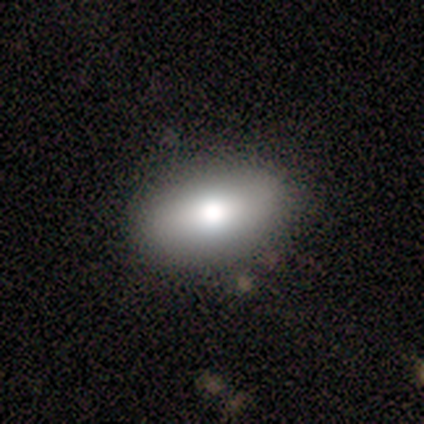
This appears to be a smooth galaxy with no disk features (100%) that is in between round and cigar-shaped (100%). Merging: none (100%).